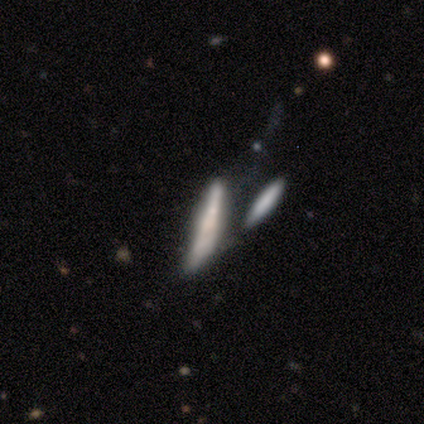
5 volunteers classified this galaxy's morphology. Q: Smooth or featured?
A: smooth (60%); runner-up: featured or disk (40%)
Q: How rounded?
A: cigar-shaped (100%)
Q: Merging?
A: none (40%); tied with: minor disturbance (40%)